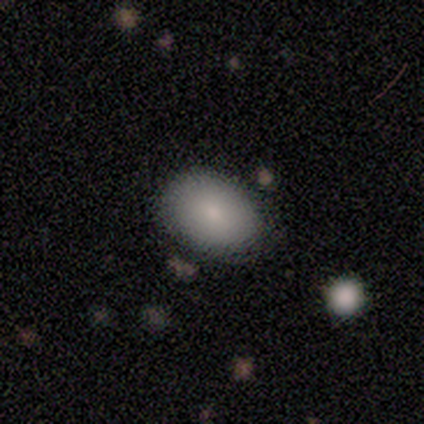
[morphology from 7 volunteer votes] smooth 100%, featured or disk 0%, star or artifact 0%. Down the decision tree: how rounded — in between (86%); merging — none (86%).